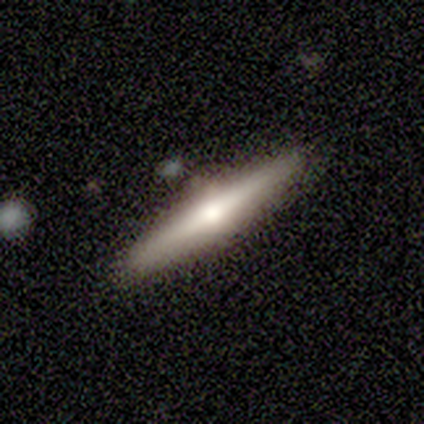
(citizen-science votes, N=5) A featured or disk galaxy (100%) viewed edge-on (100%) with a rounded central bulge (100%).

Vote fractions:
- Smooth or featured? featured or disk: 100% / smooth: 0% / star or artifact: 0%
- Edge-on disk? yes: 100% / no: 0%
- Edge-on bulge? rounded: 100% / boxy: 0% / none: 0%
- Merging? none: 80% / minor disturbance: 20% / major disturbance: 0% / merger: 0%